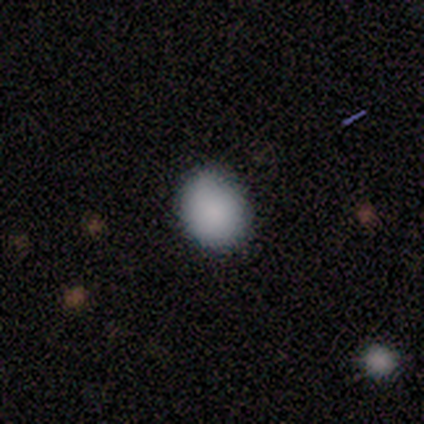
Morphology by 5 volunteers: Overall: smooth (100%). How rounded: round (80%). Merging: none (100%).